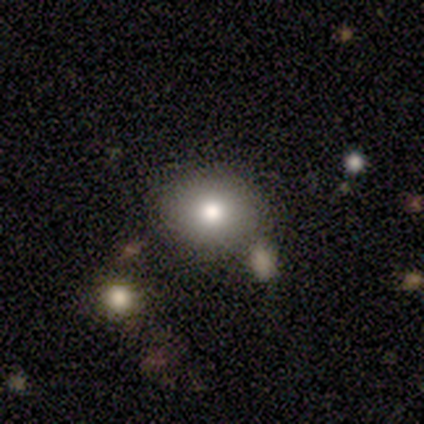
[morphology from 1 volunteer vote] This is clearly a smooth galaxy (100%). How rounded: clearly in between (100%). Merging: clearly none (100%).